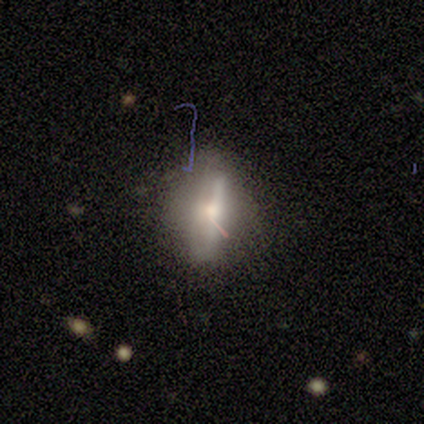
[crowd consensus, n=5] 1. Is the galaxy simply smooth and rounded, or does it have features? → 40% smooth (tied), 40% featured or disk (tied), 20% star or artifact.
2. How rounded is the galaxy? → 100% in between, 0% round, 0% cigar-shaped.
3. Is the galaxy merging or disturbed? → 75% none, 25% minor disturbance, 0% major disturbance, 0% merger.